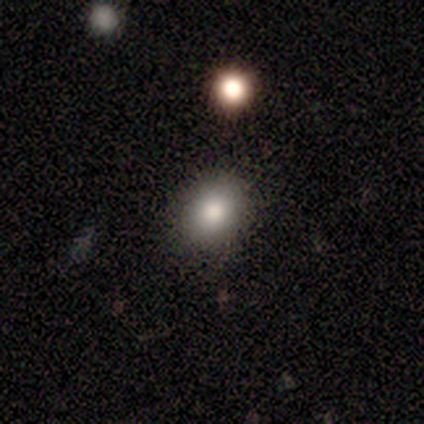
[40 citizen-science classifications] Q: Smooth or featured?
A: smooth (80%); runner-up: star or artifact (12%)
Q: How rounded?
A: round (50%); tied with: in between (50%)
Q: Merging?
A: none (86%); runner-up: minor disturbance (9%)